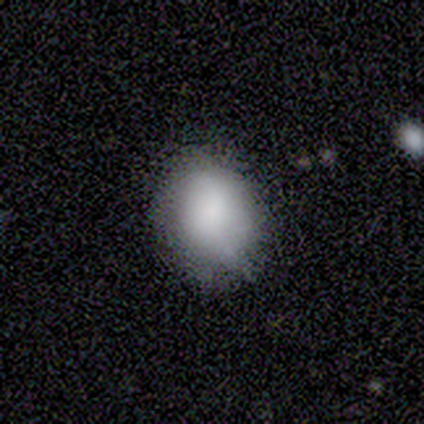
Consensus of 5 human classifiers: Overall: smooth (100%). How rounded: in between (60%; round 40%). Merging: none (80%).